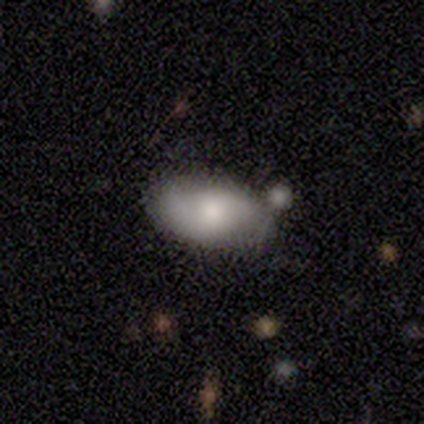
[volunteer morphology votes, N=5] Smooth or featured?
  - smooth: 60% *
  - featured or disk: 20%
  - star or artifact: 20%
How rounded?
  - in between: 100% *
  - round: 0%
  - cigar-shaped: 0%
Merging?
  - none: 50% * (tied)
  - merger: 50% * (tied)
  - minor disturbance: 0%
  - major disturbance: 0%